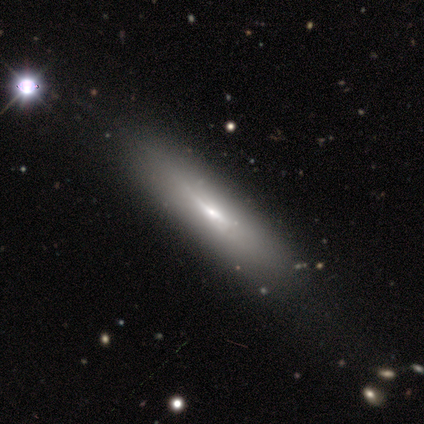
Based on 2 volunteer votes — This appears to be a smooth galaxy with no disk features (50%, tied with featured or disk) that is cigar-shaped (100%). Merging: none (50%, tied with minor disturbance).